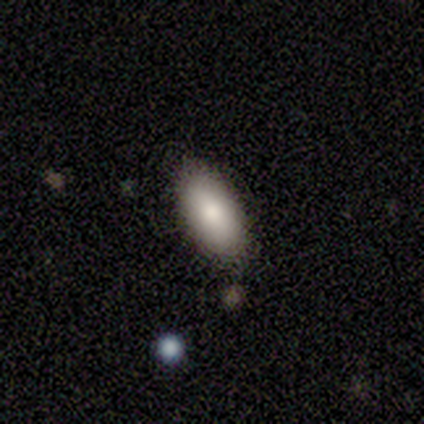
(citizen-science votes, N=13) Smooth or featured?
  - smooth: 92% *
  - featured or disk: 8%
  - star or artifact: 0%
How rounded?
  - in between: 83% *
  - cigar-shaped: 17%
  - round: 0%
Merging?
  - none: 69% *
  - merger: 23%
  - major disturbance: 8%
  - minor disturbance: 0%